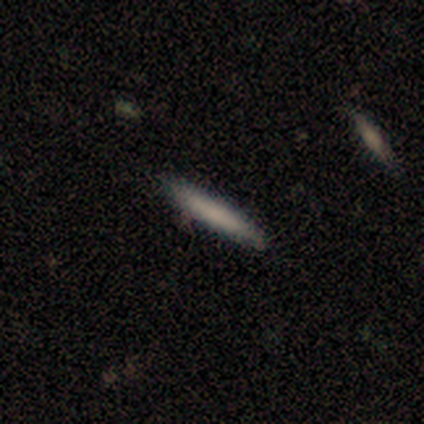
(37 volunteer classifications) smooth-or-featured: smooth: 70% | featured or disk: 22% | star or artifact: 8%
  how-rounded: cigar-shaped: 100% | round: 0% | in between: 0%
  merging: none: 94% | minor disturbance: 6% | major disturbance: 0% | merger: 0%